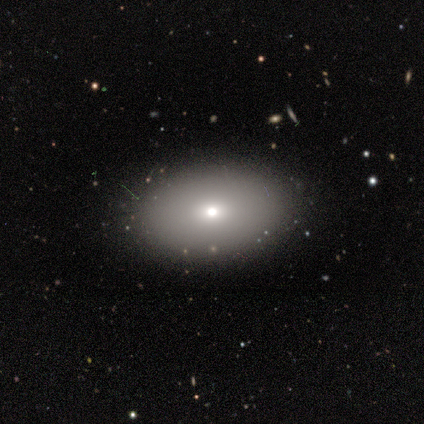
Volunteers were most divided on "smooth or featured": featured or disk: 60%, smooth: 40%, star or artifact: 0%. More confident: edge-on disk — no (100%); spiral arms — no (100%); bulge size — small (100%); merging — none (100%); bar — no (67%).